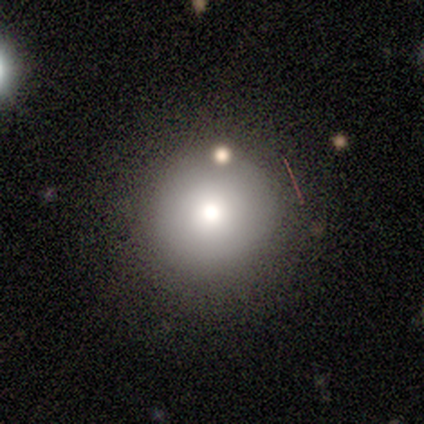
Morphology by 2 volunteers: smooth_or_featured: smooth (p=0.50) [tied with: featured or disk p=0.50]
how_rounded: round (p=1.00)
merging: none (p=1.00)